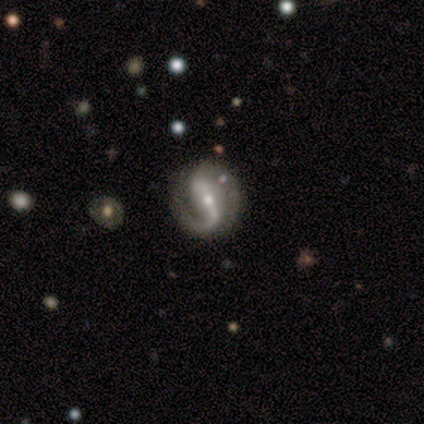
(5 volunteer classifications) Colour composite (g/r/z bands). It shows a featured or disk galaxy (80%) with a strong bar (50%, tied with weak), 1 (75%) medium (100%) spiral arms (100%) and a small central bulge (75%). Merging: none (75%).